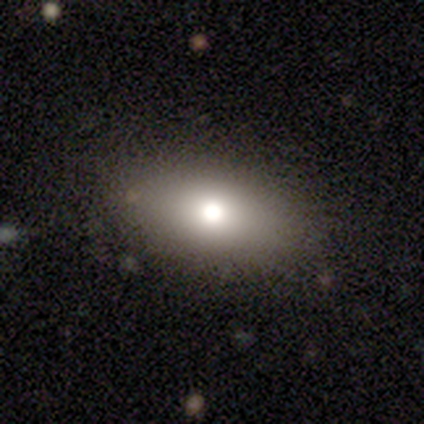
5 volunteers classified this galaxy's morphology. smooth-or-featured: smooth: 60% | featured or disk: 40% | star or artifact: 0%
  how-rounded: in between: 100% | round: 0% | cigar-shaped: 0%
  merging: none: 80% | merger: 20% | minor disturbance: 0% | major disturbance: 0%